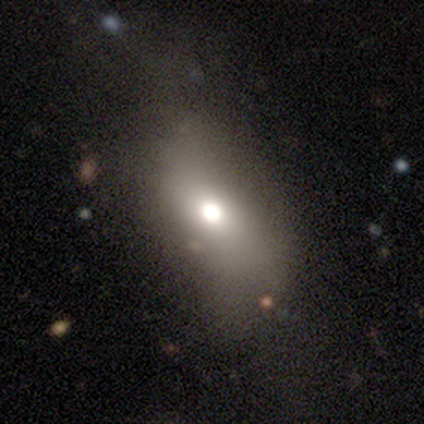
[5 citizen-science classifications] Smooth or featured: smooth — 80% (featured or disk — 20%)
How rounded: in between — 75% (round — 25%)
Merging: none — 80% (merger — 20%)